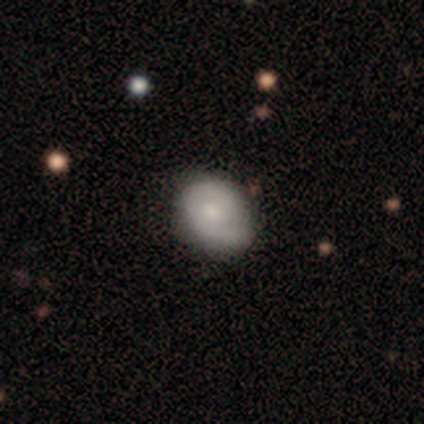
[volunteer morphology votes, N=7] type=smooth (57%); roundness=in between (100%); merging=none (57%).